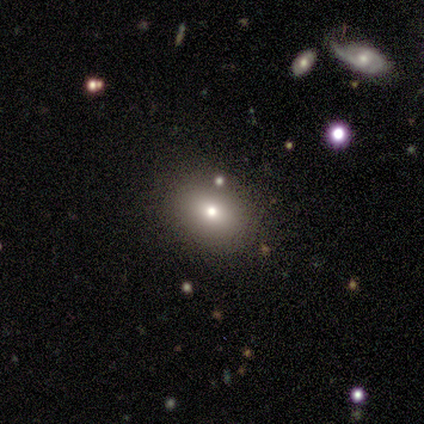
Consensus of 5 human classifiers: Q: Smooth or featured?
A: smooth (100%)
Q: How rounded?
A: in between (60%); runner-up: round (40%)
Q: Merging?
A: none (100%)